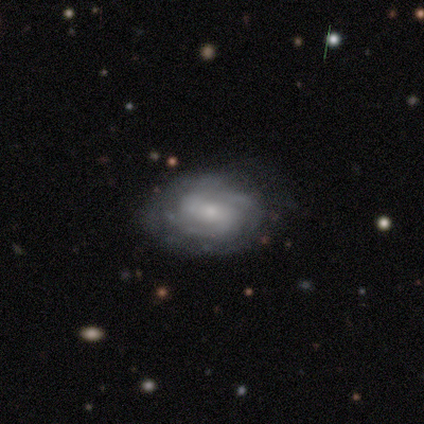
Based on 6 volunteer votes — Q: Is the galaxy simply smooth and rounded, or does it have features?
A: featured or disk — 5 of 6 (83%).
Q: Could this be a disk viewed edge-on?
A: no — 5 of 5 (100%).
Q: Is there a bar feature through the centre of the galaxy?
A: weak — 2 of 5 (40%, tied with no).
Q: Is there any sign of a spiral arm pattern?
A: yes — 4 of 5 (80%).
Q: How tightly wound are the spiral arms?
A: tight — 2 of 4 (50%, tied with medium).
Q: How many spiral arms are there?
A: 2 — 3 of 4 (75%).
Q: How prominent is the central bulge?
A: small — 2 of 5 (40%).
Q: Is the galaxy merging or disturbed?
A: none — 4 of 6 (67%).